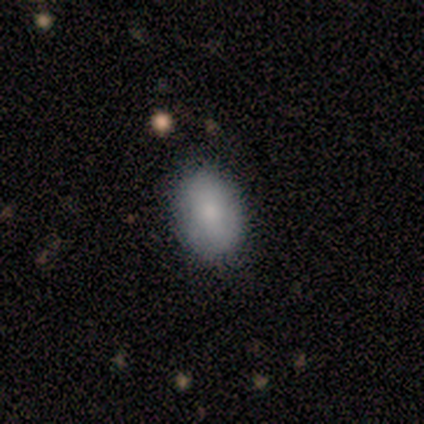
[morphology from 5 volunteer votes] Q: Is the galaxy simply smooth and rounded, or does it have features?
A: smooth — 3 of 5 (60%).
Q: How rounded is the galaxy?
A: in between — 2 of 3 (67%).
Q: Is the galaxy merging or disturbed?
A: none — 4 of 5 (80%).